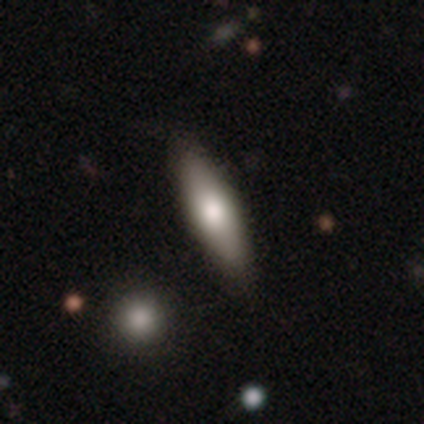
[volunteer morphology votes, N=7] This appears to be a smooth galaxy with no disk features (86%) that is in between round and cigar-shaped (67%). Merging: none (100%).